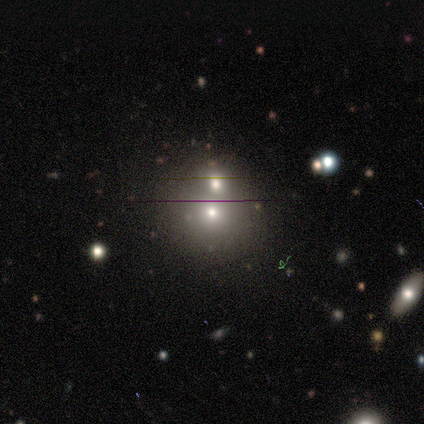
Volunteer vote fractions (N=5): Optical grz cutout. It shows a star or artifact, not a galaxy (60%).